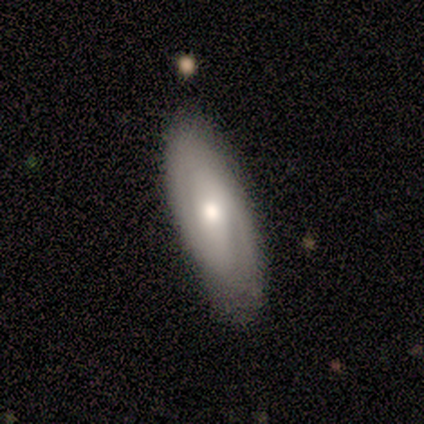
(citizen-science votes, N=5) This is likely a featured or disk galaxy (60%). It is likely viewed edge-on (67%). Edge-on bulge: possibly none (50%, tied with rounded). Merging: likely none (75%).